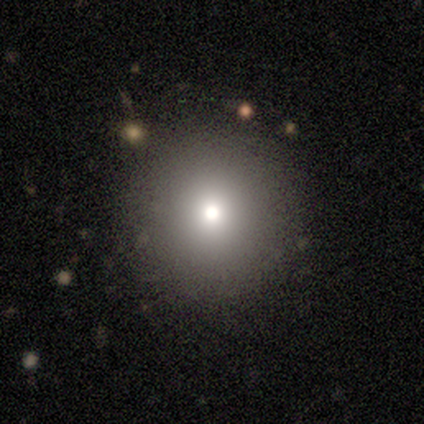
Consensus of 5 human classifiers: smooth 60%, featured or disk 20%, star or artifact 20%. Down the decision tree: how rounded — round (100%); merging — none (75%).